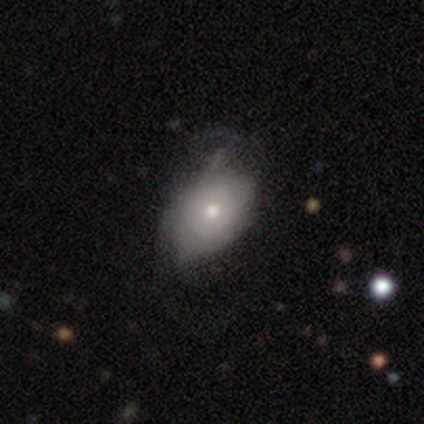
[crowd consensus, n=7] Smooth or featured: featured or disk — 57% (smooth — 29%)
Edge-on disk: no — 100%
Bar: no — 100%
Spiral arms: no — 75% (yes — 25%)
Bulge size: small — 75% (dominant — 25%)
Merging: minor disturbance — 50% (major disturbance — 33%)